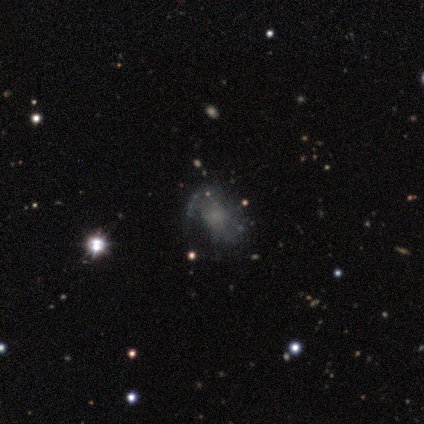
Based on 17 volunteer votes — A smooth galaxy with no disk features (41%, tied with featured or disk) that is in between round and cigar-shaped (86%). Merging: none (57%).